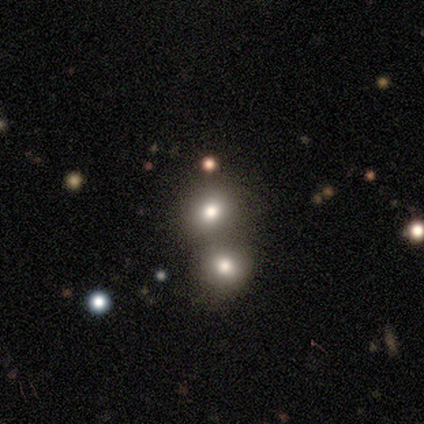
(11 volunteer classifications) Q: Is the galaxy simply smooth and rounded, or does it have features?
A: smooth — 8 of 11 (73%).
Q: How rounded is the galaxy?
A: round — 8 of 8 (100%).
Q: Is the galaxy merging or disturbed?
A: merger — 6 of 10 (60%).